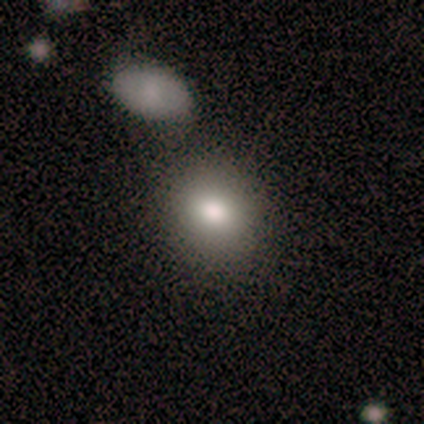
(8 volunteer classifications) This appears to be a smooth galaxy with no disk features (100%) that is in between round and cigar-shaped (62%). Merging: none (75%).